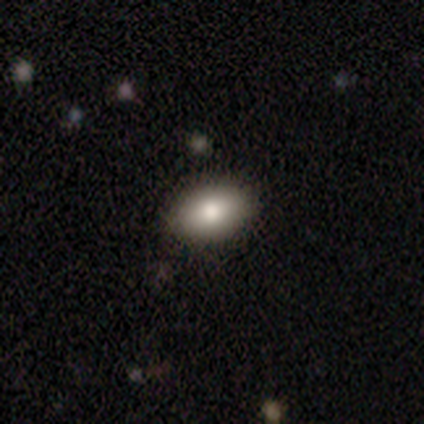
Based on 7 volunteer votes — Morphology: type=smooth (86%); roundness=in between (83%); merging=none (86%).